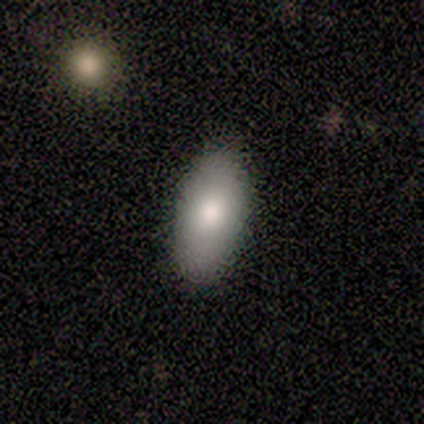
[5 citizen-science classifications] smooth_or_featured: smooth (p=0.80) [alt: star or artifact p=0.20]
how_rounded: in between (p=0.75) [alt: cigar-shaped p=0.25]
merging: none (p=1.00)